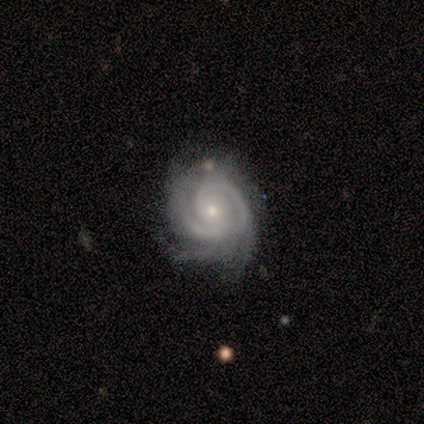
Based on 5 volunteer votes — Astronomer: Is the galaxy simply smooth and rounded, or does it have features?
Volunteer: featured or disk — 80%.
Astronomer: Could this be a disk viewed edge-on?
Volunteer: no — 100%.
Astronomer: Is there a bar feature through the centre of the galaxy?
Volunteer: no — 100%.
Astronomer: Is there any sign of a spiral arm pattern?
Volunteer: yes — 100%.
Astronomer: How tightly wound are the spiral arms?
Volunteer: tight — 50%, tied with medium at 50%.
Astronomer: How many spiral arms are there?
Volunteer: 2 — 50%, tied with 3 at 50%.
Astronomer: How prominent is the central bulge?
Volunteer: small — 75%.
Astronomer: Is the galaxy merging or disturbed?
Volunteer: none — 50%, tied with major disturbance at 50%.